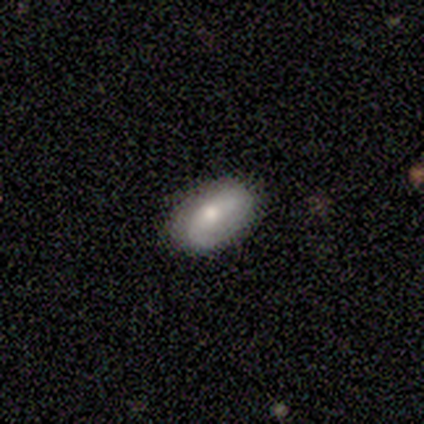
smooth_or_featured: smooth (p=0.75) [alt: featured or disk p=0.25]
how_rounded: in between (p=1.00)
merging: none (p=0.75) [alt: minor disturbance p=0.25]